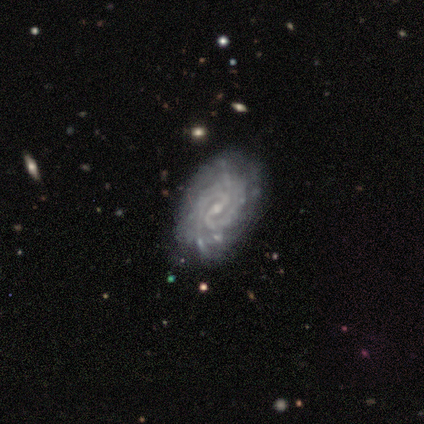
smooth-or-featured: featured or disk: 83% | smooth: 8% | star or artifact: 8%
  disk-edge-on: no: 100% | yes: 0%
    bar: weak: 60% | strong: 20% | no: 20%
    has-spiral-arms: yes: 100% | no: 0%
      spiral-winding: tight: 80% | medium: 20% | loose: 0%
      spiral-arm-count: 2: 60% | can't tell: 40% | 1: 0% | 3: 0% | 4: 0% | more than 4: 0%
    bulge-size: small: 90% | none: 10% | dominant: 0% | large: 0% | moderate: 0%
  merging: none: 73% | minor disturbance: 27% | major disturbance: 0% | merger: 0%